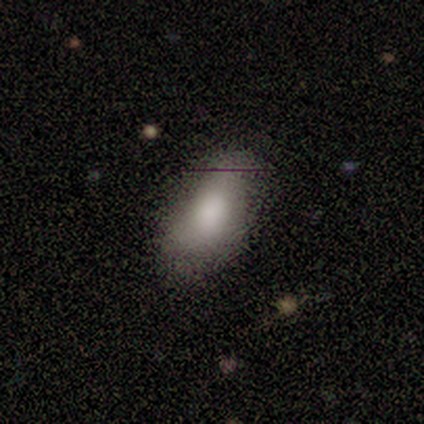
Smooth or featured?
  - smooth: 80% *
  - star or artifact: 20%
  - featured or disk: 0%
How rounded?
  - in between: 100% *
  - round: 0%
  - cigar-shaped: 0%
Merging?
  - none: 100% *
  - minor disturbance: 0%
  - major disturbance: 0%
  - merger: 0%